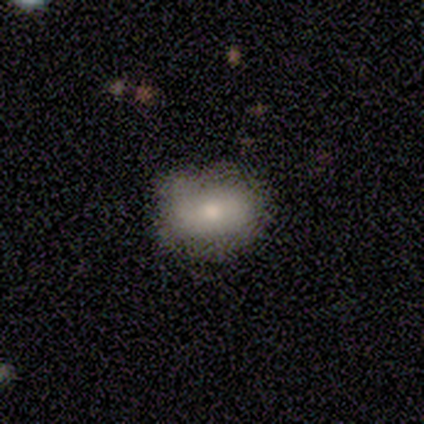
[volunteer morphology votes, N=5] Smooth or featured: smooth — 60% (featured or disk — 20%)
How rounded: in between — 100%
Merging: none — 75% (minor disturbance — 25%)